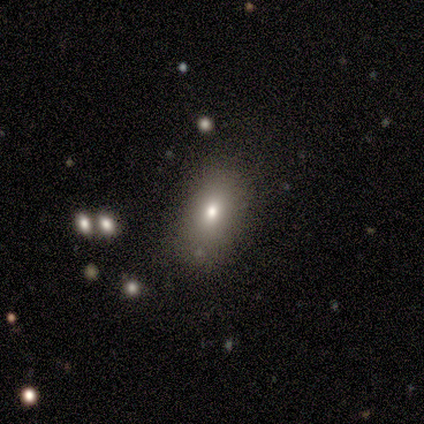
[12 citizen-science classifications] Q: Smooth or featured?
A: smooth (75%); runner-up: featured or disk (17%)
Q: How rounded?
A: in between (78%); runner-up: cigar-shaped (22%)
Q: Merging?
A: none (82%); runner-up: minor disturbance (18%)